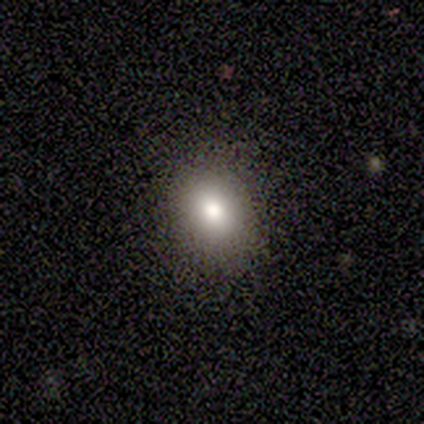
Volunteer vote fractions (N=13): smooth-or-featured: smooth: 69% | star or artifact: 31% | featured or disk: 0%
  how-rounded: in between: 78% | round: 22% | cigar-shaped: 0%
  merging: none: 67% | minor disturbance: 22% | major disturbance: 11% | merger: 0%